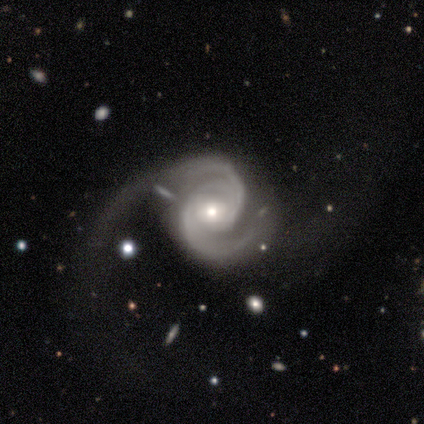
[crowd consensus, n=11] Smooth or featured?
  - featured or disk: 91% *
  - star or artifact: 9%
  - smooth: 0%
Edge-on disk?
  - no: 100% *
  - yes: 0%
Bar?
  - no: 60% *
  - strong: 20%
  - weak: 20%
Spiral arms?
  - yes: 100% *
  - no: 0%
Spiral winding?
  - medium: 60% *
  - tight: 40%
  - loose: 0%
Spiral arm count?
  - 2: 90% *
  - 3: 10%
  - 1: 0%
  - 4: 0%
  - more than 4: 0%
  - can't tell: 0%
Bulge size?
  - moderate: 50% * (tied)
  - small: 50% * (tied)
  - dominant: 0%
  - large: 0%
  - none: 0%
Merging?
  - none: 70% *
  - major disturbance: 20%
  - minor disturbance: 10%
  - merger: 0%